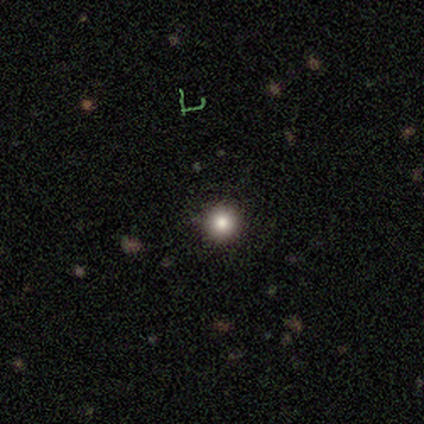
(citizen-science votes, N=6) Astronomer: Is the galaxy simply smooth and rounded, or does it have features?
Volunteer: smooth — 83%.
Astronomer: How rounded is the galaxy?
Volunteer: round — 100%.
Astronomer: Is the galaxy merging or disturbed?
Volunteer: none — 100%.